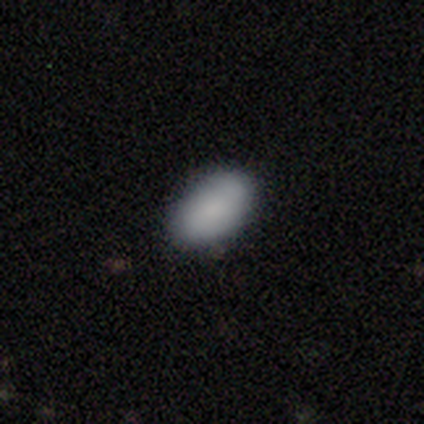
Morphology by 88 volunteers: smooth 91%, featured or disk 6%, star or artifact 3%. Down the decision tree: how rounded — in between (92%); merging — none (81%).